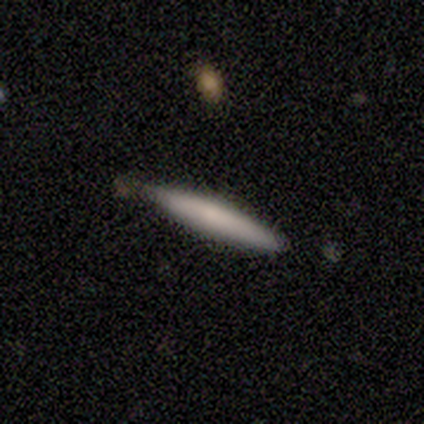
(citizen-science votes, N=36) Overall: smooth (61%; featured or disk 36%). How rounded: cigar-shaped (91%). Merging: none (74%).